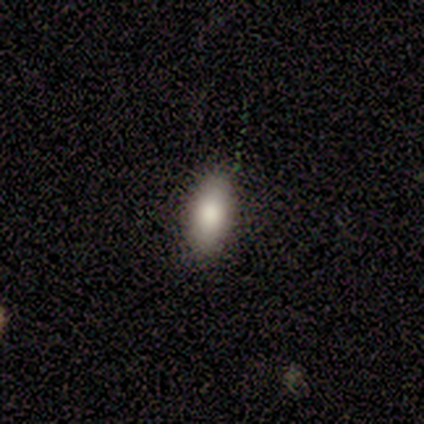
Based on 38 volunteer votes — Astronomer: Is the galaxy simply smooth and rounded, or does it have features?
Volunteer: smooth — 87%.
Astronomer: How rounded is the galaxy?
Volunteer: in between — 91%.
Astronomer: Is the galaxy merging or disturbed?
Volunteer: none — 83%.